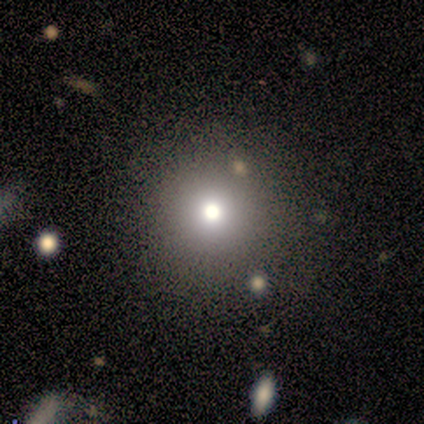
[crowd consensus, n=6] Morphology: type=smooth (83%); roundness=round (100%); merging=none (100%).